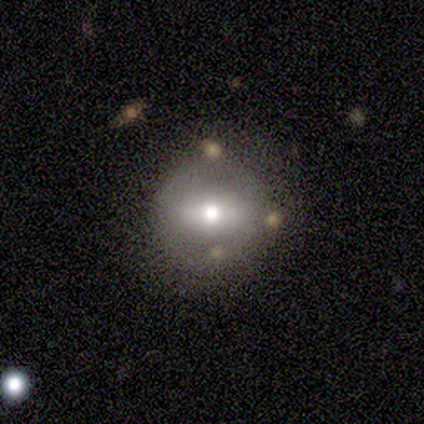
Smooth or featured: smooth — 100%
How rounded: round — 100%
Merging: none — 67% (minor disturbance — 33%)